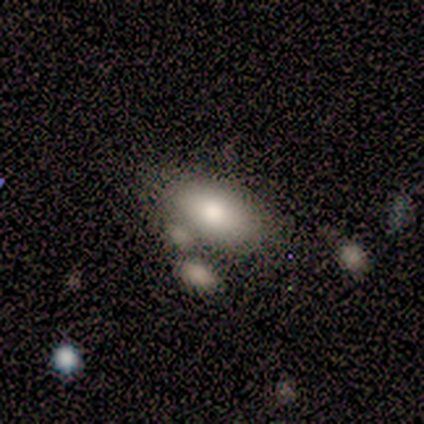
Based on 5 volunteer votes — Smooth or featured? smooth (80%)
How rounded? in between (100%)
Merging? none (50%, tied with minor disturbance)